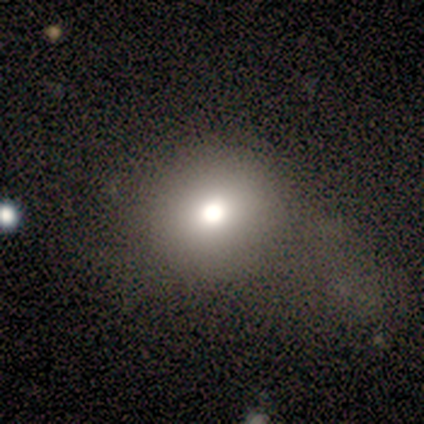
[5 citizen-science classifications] Smooth or featured?
  - smooth: 80% *
  - featured or disk: 20%
  - star or artifact: 0%
How rounded?
  - round: 75% *
  - in between: 25%
  - cigar-shaped: 0%
Merging?
  - major disturbance: 60% *
  - none: 40%
  - minor disturbance: 0%
  - merger: 0%